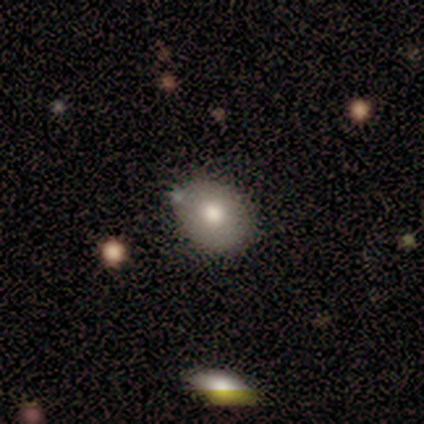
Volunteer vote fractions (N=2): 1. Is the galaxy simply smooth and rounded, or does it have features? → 100% smooth, 0% featured or disk, 0% star or artifact.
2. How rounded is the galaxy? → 50% round (tied), 50% in between (tied), 0% cigar-shaped.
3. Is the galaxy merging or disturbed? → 100% none, 0% minor disturbance, 0% major disturbance, 0% merger.